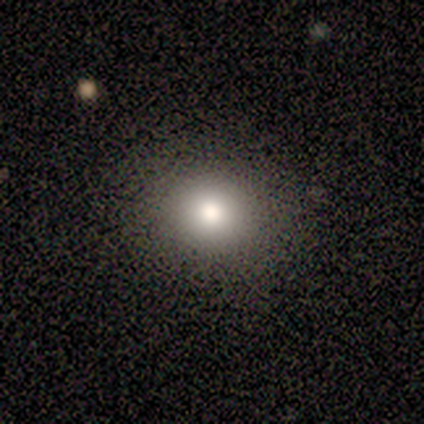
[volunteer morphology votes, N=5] This is clearly a smooth galaxy (100%). How rounded: clearly round (100%). Merging: clearly none (80%).